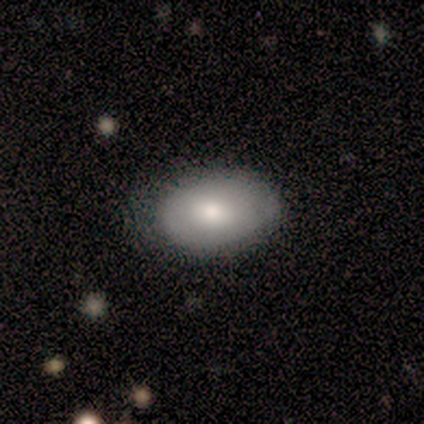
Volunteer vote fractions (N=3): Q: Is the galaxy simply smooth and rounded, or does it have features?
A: smooth — 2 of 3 (67%).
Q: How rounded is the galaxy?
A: in between — 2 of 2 (100%).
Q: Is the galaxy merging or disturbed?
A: none — 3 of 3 (100%).